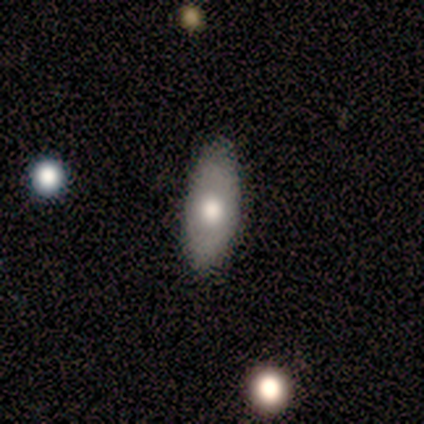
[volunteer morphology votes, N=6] A smooth galaxy with no disk features (83%) that is in between round and cigar-shaped (100%). Merging: none (83%).